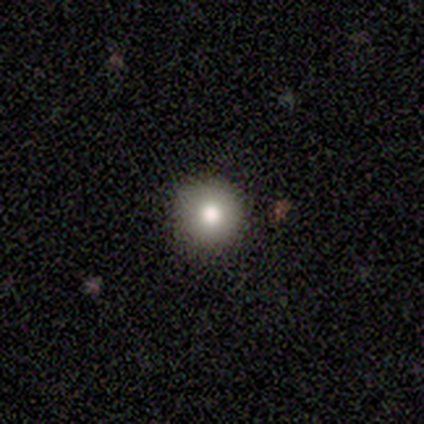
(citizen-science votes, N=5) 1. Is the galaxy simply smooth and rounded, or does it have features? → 100% smooth, 0% featured or disk, 0% star or artifact.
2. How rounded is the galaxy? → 100% round, 0% in between, 0% cigar-shaped.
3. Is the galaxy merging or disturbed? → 100% none, 0% minor disturbance, 0% major disturbance, 0% merger.